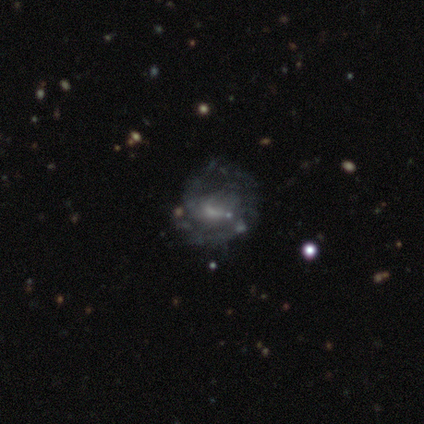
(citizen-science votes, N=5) A featured or disk galaxy (100%) with a weak bar (75%), 2 (50%) tight (100%) spiral arms (100%) and a small central bulge (75%). Merging: minor disturbance (80%).